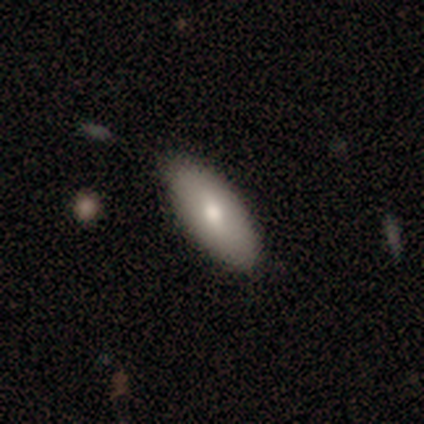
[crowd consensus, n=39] Volunteers were most divided on "smooth or featured": smooth: 69%, featured or disk: 26%, star or artifact: 5%. More confident: how rounded — in between (93%); merging — none (89%).